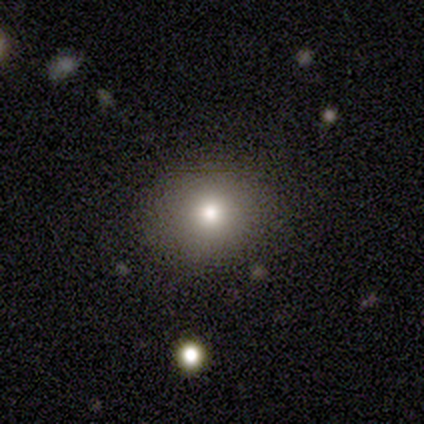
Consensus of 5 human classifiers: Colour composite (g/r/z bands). It shows a smooth galaxy with no disk features (60%) that is round (100%). Merging: none (100%).